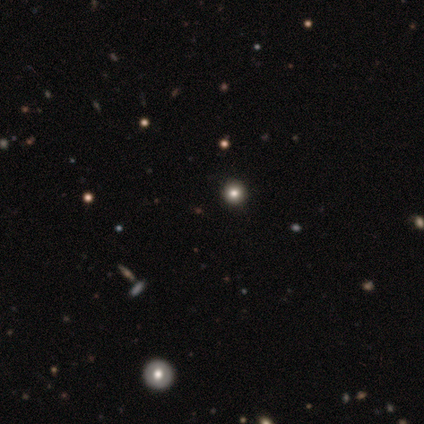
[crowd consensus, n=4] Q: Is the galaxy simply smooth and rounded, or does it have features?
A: smooth — 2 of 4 (50%).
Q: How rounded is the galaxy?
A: round — 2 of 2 (100%).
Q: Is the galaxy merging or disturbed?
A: none — 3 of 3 (100%).